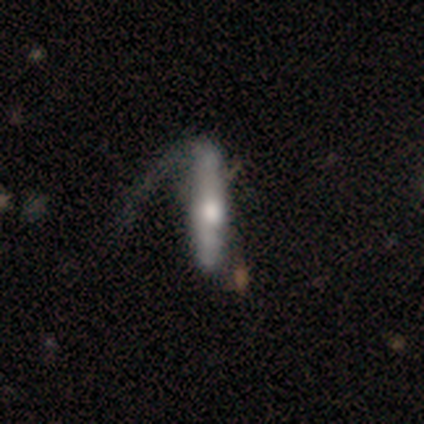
smooth-or-featured: featured or disk: 63% | smooth: 37% | star or artifact: 0%
  disk-edge-on: yes: 62% | no: 38%
    edge-on-bulge: rounded: 87% | none: 13% | boxy: 0%
  merging: major disturbance: 42% | none: 16% | minor disturbance: 13% | merger: 3%